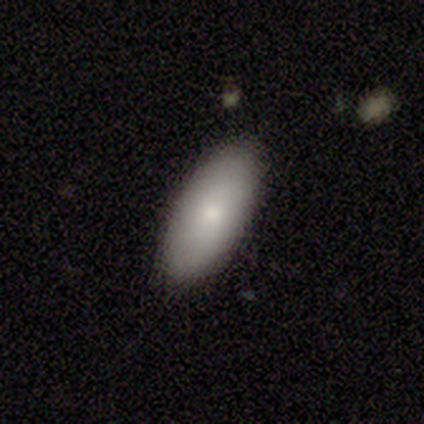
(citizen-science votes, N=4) Morphology: type=smooth (100%); roundness=in between (100%); merging=none (75%).